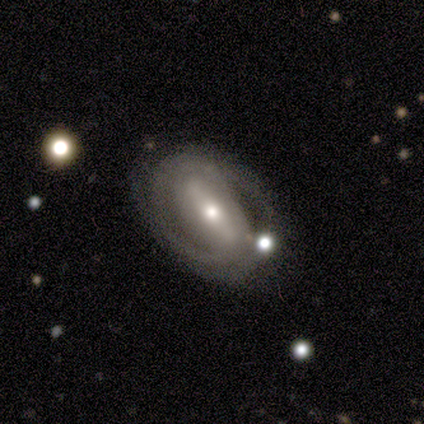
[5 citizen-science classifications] featured or disk 100%, smooth 0%, star or artifact 0%. Down the decision tree: edge-on disk — no (100%); bar — strong (60%); spiral arms — yes (60%); spiral arm count — 2 (100%); spiral winding — medium (67%); bulge size — small (60%); merging — none (80%).